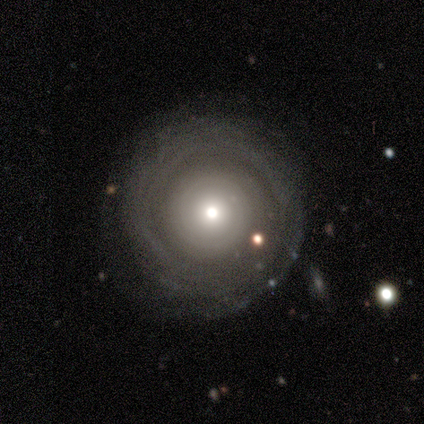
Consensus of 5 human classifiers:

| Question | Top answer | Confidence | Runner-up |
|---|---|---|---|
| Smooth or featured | featured or disk | 60% | smooth (20%) |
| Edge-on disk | no | 100% | — |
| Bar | no | 67% | weak (33%) |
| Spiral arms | yes | 100% | — |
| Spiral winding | tight | 100% | — |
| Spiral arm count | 4 | 33% | tied: more than 4 (33%), can't tell (33%) |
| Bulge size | small | 67% | moderate (33%) |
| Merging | none | 100% | — |